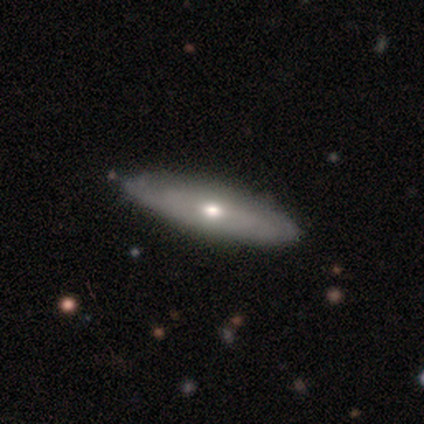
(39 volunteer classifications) smooth_or_featured: featured or disk (p=0.54) [alt: smooth p=0.44]
disk_edge_on: no (p=0.67) [alt: yes p=0.33]
bar: no (p=1.00)
has_spiral_arms: no (p=0.57) [alt: yes p=0.43]
bulge_size: moderate (p=0.64) [alt: small p=0.21]
merging: none (p=0.63) [alt: minor disturbance p=0.13]